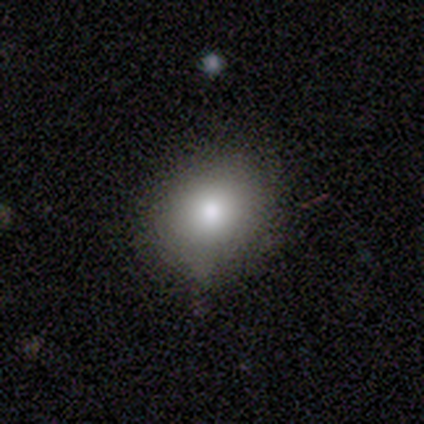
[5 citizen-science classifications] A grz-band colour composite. It shows a smooth galaxy with no disk features (80%) that is round (75%). Merging: minor disturbance (60%).